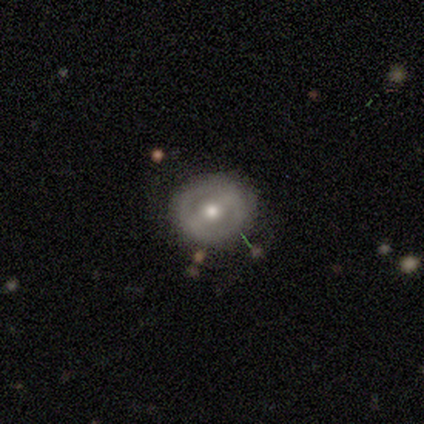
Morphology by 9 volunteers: Smooth or featured?
  - featured or disk: 78% *
  - smooth: 22%
  - star or artifact: 0%
Edge-on disk?
  - no: 86% *
  - yes: 14%
Bar?
  - no: 50% *
  - weak: 33%
  - strong: 17%
Spiral arms?
  - no: 83% *
  - yes: 17%
Bulge size?
  - moderate: 83% *
  - small: 17%
  - dominant: 0%
  - large: 0%
  - none: 0%
Merging?
  - none: 100% *
  - minor disturbance: 0%
  - major disturbance: 0%
  - merger: 0%